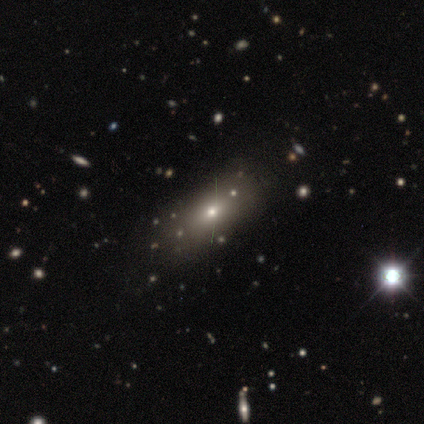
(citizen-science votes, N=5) smooth-or-featured: smooth: 80% | star or artifact: 20% | featured or disk: 0%
  how-rounded: in between: 75% | round: 25% | cigar-shaped: 0%
  merging: major disturbance: 50% | none: 25% | minor disturbance: 25% | merger: 0%